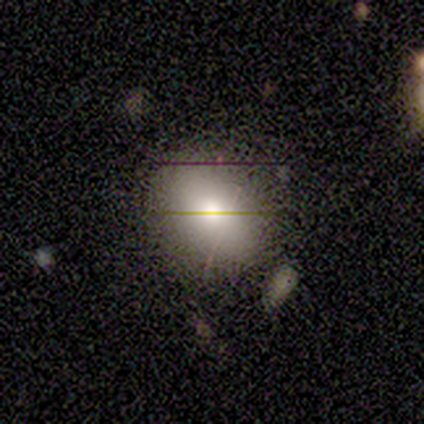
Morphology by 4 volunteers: Volunteers were most divided on "how rounded": round: 75%, in between: 25%, cigar-shaped: 0%. More confident: smooth or featured — smooth (100%); merging — none (75%).